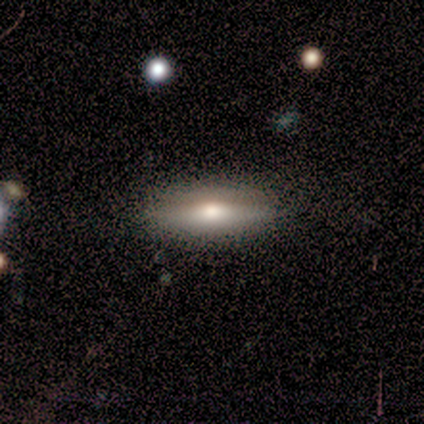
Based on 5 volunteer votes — This is likely a smooth galaxy (60%). How rounded: likely cigar-shaped (67%). Merging: clearly none (80%).